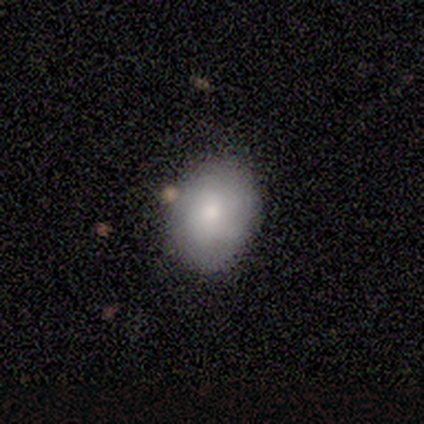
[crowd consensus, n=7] This appears to be a smooth galaxy with no disk features (71%) that is in between round and cigar-shaped (80%). Merging: none (57%).